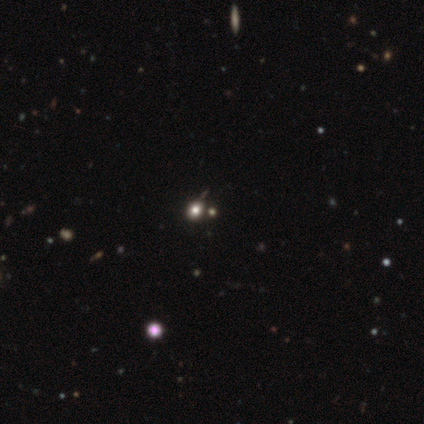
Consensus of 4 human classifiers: Overall: smooth (50%; featured or disk 25%). How rounded: round (50%, tied with in between). Merging: none (67%; merger 33%).